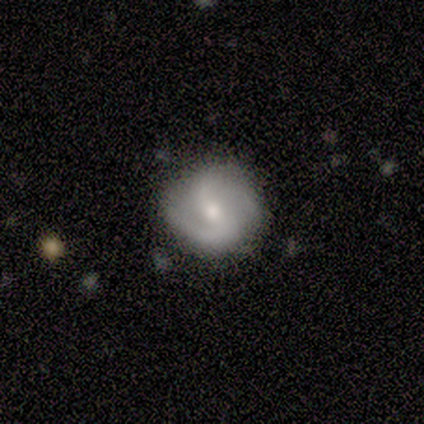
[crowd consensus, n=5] A smooth galaxy with no disk features (40%, tied with featured or disk) that is round (100%). Merging: none (100%).